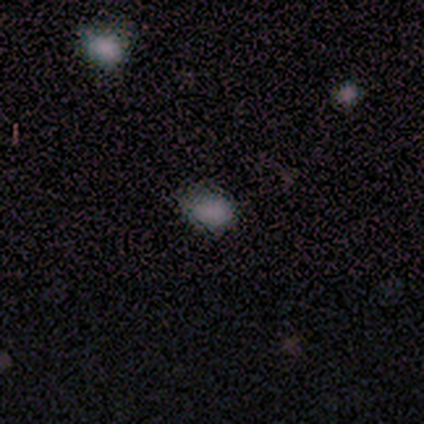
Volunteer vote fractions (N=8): Morphology: type=smooth (88%); roundness=in between (86%); merging=none (86%).